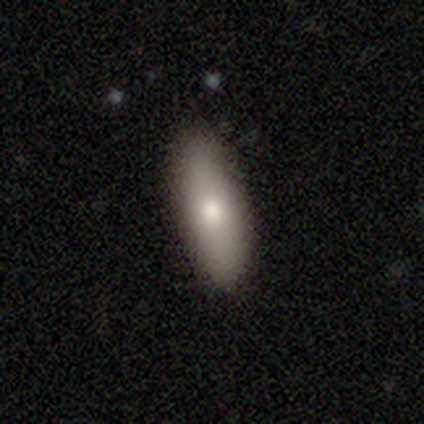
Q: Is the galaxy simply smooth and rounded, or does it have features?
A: smooth — 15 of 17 (88%).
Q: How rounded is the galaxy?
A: in between — 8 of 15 (53%).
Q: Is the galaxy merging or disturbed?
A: none — 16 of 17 (94%).